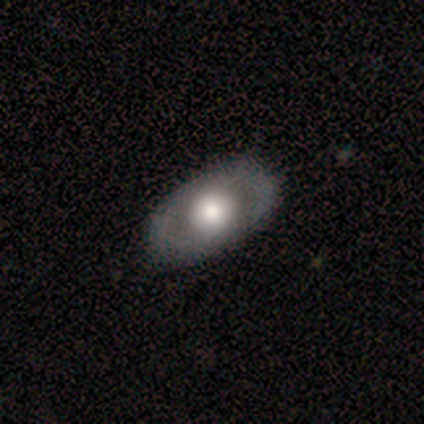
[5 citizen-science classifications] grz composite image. It shows a featured or disk galaxy (100%) with no bar (60%), no spiral arms (60%) and a moderate central bulge (60%). Merging: none (100%).